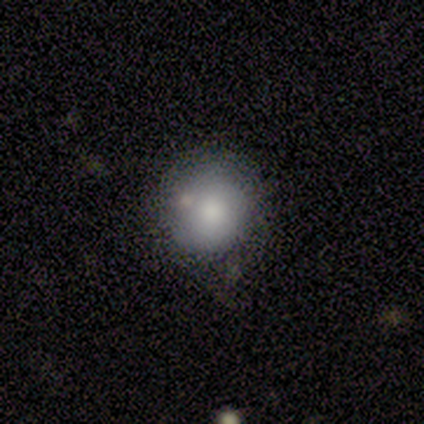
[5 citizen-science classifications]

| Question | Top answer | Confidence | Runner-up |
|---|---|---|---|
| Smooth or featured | smooth | 60% | featured or disk (20%) |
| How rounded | round | 100% | — |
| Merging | none | 75% | minor disturbance (25%) |